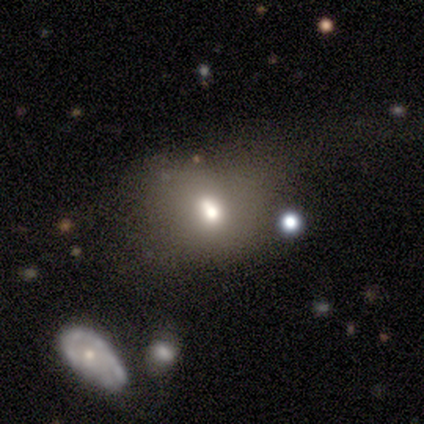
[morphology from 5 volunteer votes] Volunteers were most divided on "merging" (4-way tie): none: 25%, minor disturbance: 25%, major disturbance: 25%, merger: 25%. More confident: how rounded — in between (67%); smooth or featured — smooth (60%).